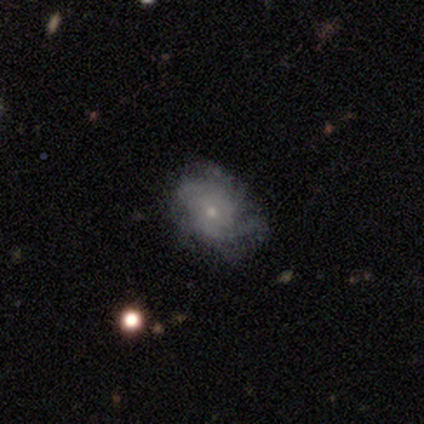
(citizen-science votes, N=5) smooth_or_featured: featured or disk (p=0.60) [alt: smooth p=0.40]
disk_edge_on: no (p=1.00)
bar: no (p=1.00)
has_spiral_arms: yes (p=0.67) [alt: no p=0.33]
spiral_winding: tight (p=1.00)
spiral_arm_count: 3 (p=0.50) [tied with: can't tell p=0.50]
bulge_size: moderate (p=0.67) [alt: small p=0.33]
merging: none (p=1.00)